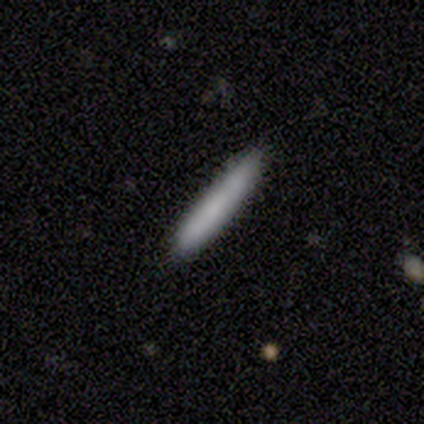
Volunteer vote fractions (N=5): smooth 60%, featured or disk 40%, star or artifact 0%. Down the decision tree: how rounded — cigar-shaped (100%); merging — none (100%).